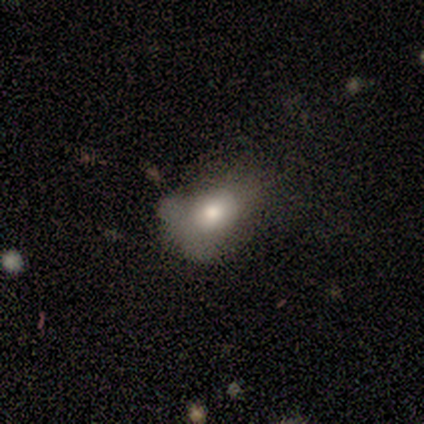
Smooth or featured?
  - smooth: 67% *
  - featured or disk: 33%
  - star or artifact: 0%
How rounded?
  - in between: 100% *
  - round: 0%
  - cigar-shaped: 0%
Merging?
  - major disturbance: 50% *
  - minor disturbance: 33%
  - none: 17%
  - merger: 0%